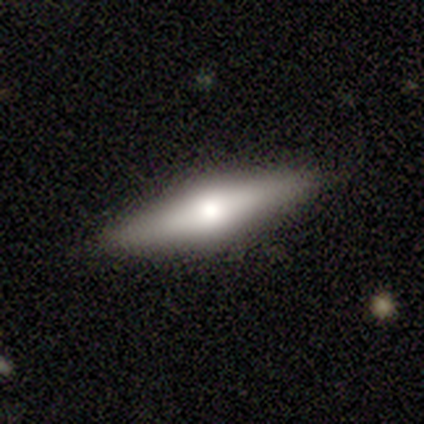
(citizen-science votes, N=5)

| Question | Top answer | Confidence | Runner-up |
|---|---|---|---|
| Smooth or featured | smooth | 60% | featured or disk (40%) |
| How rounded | cigar-shaped | 67% | in between (33%) |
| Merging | none | 100% | — |